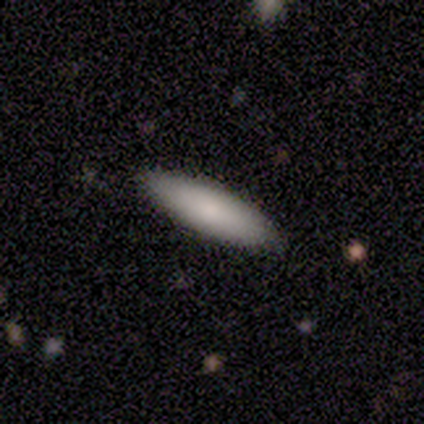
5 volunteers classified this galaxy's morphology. type=smooth (100%); roundness=cigar-shaped (80%); merging=none (80%).